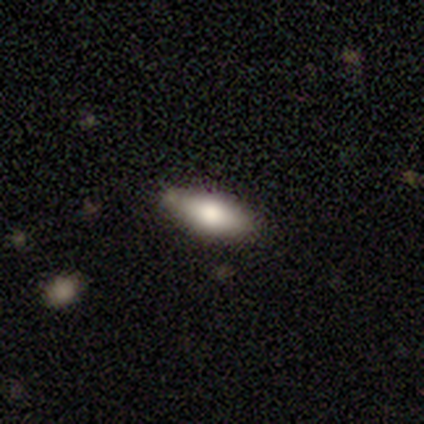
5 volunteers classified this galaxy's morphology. Smooth or featured: smooth — 100%
How rounded: in between — 80% (cigar-shaped — 20%)
Merging: none — 80% (minor disturbance — 20%)